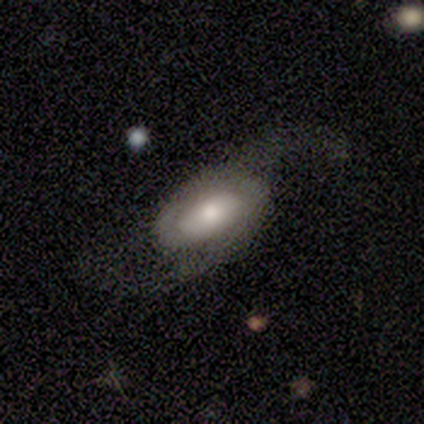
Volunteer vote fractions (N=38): A featured or disk galaxy (82%) with no bar (63%), 2 (83%) loose (87%) spiral arms (85%) and a moderate central bulge (33%).

Vote fractions:
- Smooth or featured? featured or disk: 82% / smooth: 18% / star or artifact: 0%
- Edge-on disk? no: 87% / yes: 13%
- Bar? no: 63% / weak: 30% / strong: 7%
- Spiral arms? yes: 85% / no: 15%
- Spiral winding? loose: 87% / medium: 13% / tight: 0%
- Spiral arm count? 2: 83% / 1: 9% / can't tell: 9% / 3: 0% / 4: 0% / more than 4: 0%
- Bulge size? moderate: 33% / small: 30% / large: 19% / dominant: 15% / none: 4%
- Merging? none: 53% / major disturbance: 34% / minor disturbance: 13% / merger: 0%